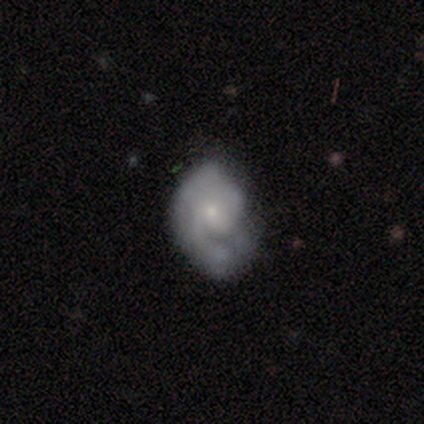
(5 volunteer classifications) This appears to be a smooth galaxy with no disk features (60%) that is in between round and cigar-shaped (100%). Merging: minor disturbance (40%, tied with major disturbance).